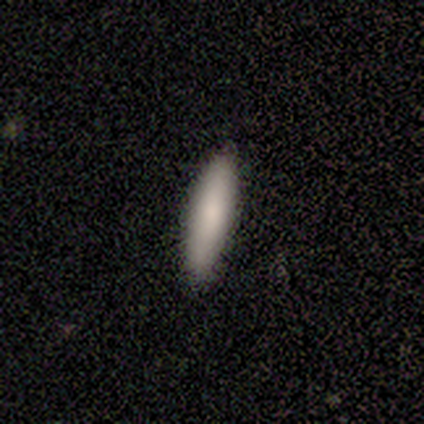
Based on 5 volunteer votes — Smooth or featured?
  - smooth: 100% *
  - featured or disk: 0%
  - star or artifact: 0%
How rounded?
  - cigar-shaped: 80% *
  - in between: 20%
  - round: 0%
Merging?
  - none: 100% *
  - minor disturbance: 0%
  - major disturbance: 0%
  - merger: 0%